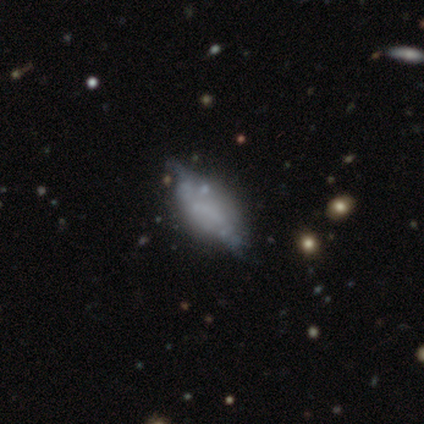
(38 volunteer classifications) Smooth or featured: featured or disk — 47% (smooth — 45%)
Edge-on disk: no — 72% (yes — 28%)
Bar: no — 85% (weak — 15%)
Spiral arms: no — 85% (yes — 15%)
Bulge size: none — 92% (small — 8%)
Merging: none — 54% (minor disturbance — 11%)